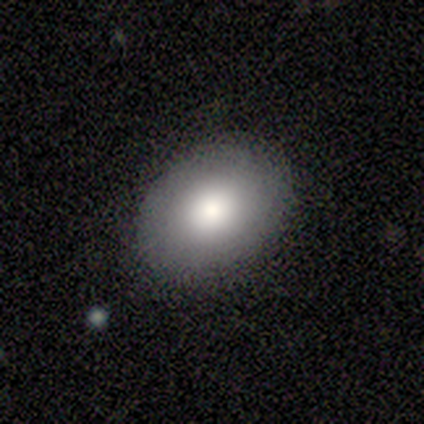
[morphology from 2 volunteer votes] A smooth galaxy with no disk features (100%) that is in between round and cigar-shaped (100%). Merging: none (100%).